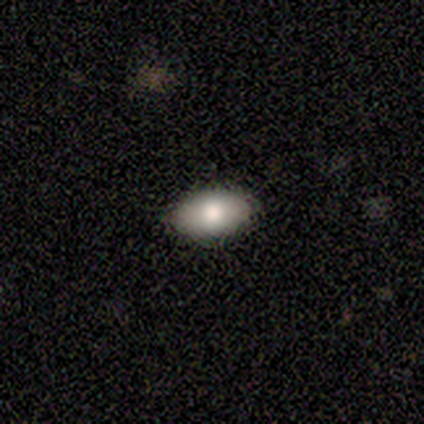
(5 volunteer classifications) Smooth or featured?
  - smooth: 80% *
  - featured or disk: 20%
  - star or artifact: 0%
How rounded?
  - in between: 75% *
  - round: 25%
  - cigar-shaped: 0%
Merging?
  - none: 100% *
  - minor disturbance: 0%
  - major disturbance: 0%
  - merger: 0%